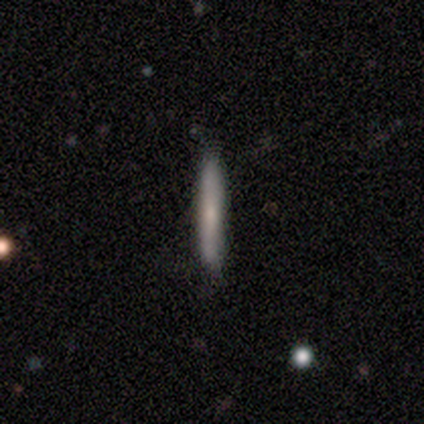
Smooth or featured? smooth (75%)
How rounded? cigar-shaped (100%)
Merging? none (100%)